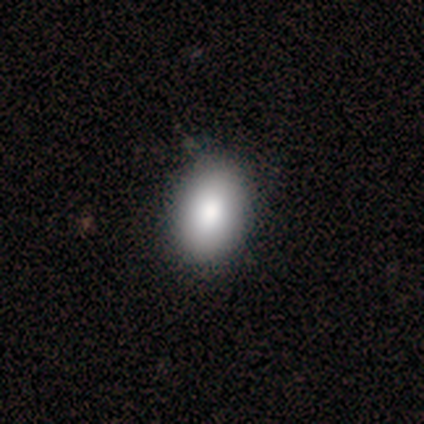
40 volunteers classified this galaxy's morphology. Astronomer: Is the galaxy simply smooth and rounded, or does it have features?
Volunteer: smooth — 85%.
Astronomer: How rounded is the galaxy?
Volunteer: in between — 88%.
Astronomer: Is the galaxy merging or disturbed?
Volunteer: none — 59%.